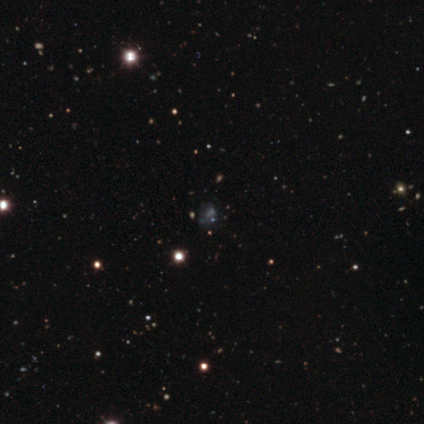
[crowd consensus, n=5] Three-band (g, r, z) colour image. It shows a smooth galaxy with no disk features (40%, tied with featured or disk) that is in between round and cigar-shaped (100%). Merging: none (50%).